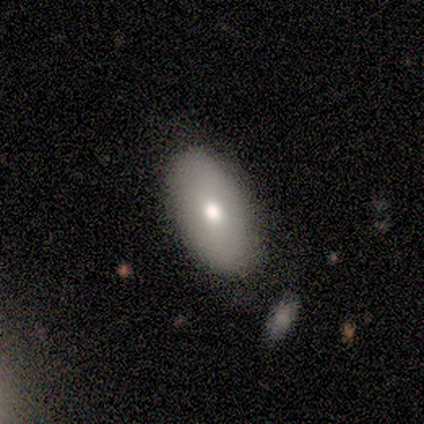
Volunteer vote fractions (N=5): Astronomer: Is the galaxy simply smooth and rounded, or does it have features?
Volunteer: smooth — 80%.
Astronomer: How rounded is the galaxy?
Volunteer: in between — 75%.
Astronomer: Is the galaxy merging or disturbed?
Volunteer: none — 80%.